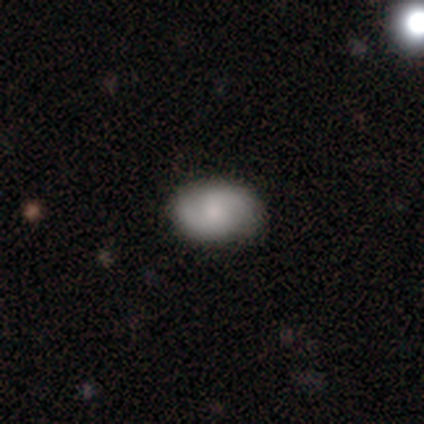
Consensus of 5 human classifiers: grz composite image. It shows a featured or disk galaxy (60%) with no bar (100%), 2 (100%) medium (50%, tied with loose) spiral arms (67%) and a moderate central bulge (67%). Merging: none (100%).